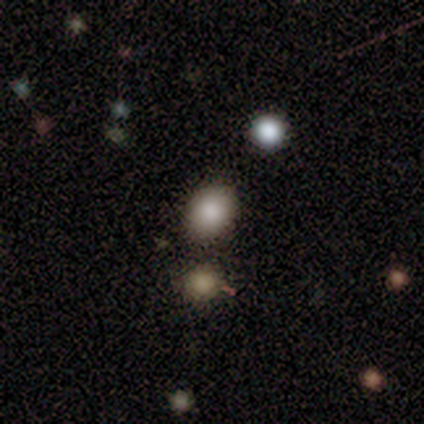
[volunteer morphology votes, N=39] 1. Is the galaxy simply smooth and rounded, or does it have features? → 82% smooth, 10% star or artifact, 8% featured or disk.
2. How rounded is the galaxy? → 53% in between, 47% round, 0% cigar-shaped.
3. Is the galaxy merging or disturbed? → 54% none, 11% merger, 3% minor disturbance, 3% major disturbance.